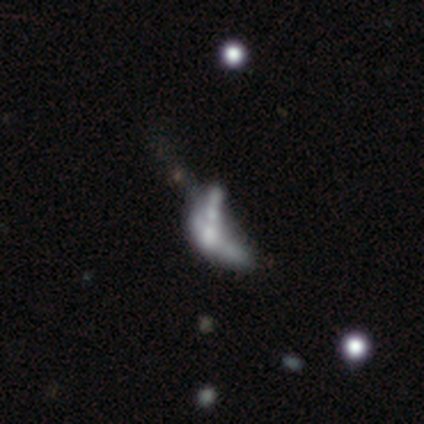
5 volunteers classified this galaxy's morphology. type=featured or disk (80%); edge-on=no (100%); bar=no (50%); spiral arms=no (100%); bulge=none (75%); merging=none (40%, tied with merger).